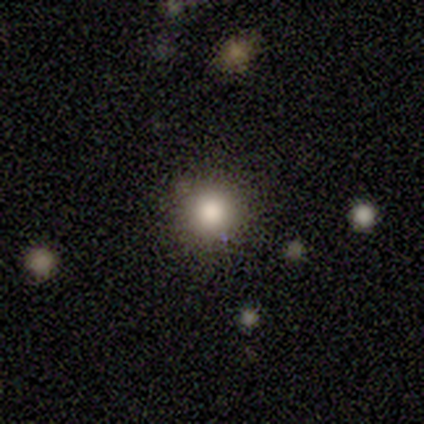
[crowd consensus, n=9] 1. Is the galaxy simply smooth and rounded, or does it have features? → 56% smooth, 44% star or artifact, 0% featured or disk.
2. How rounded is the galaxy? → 100% round, 0% in between, 0% cigar-shaped.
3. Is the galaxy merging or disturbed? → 100% none, 0% minor disturbance, 0% major disturbance, 0% merger.